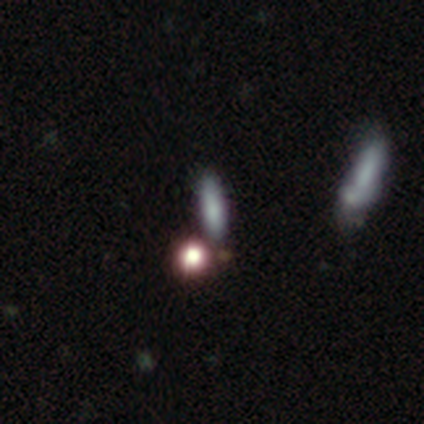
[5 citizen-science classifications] A smooth galaxy with no disk features (100%) that is cigar-shaped (60%). Merging: none (60%).